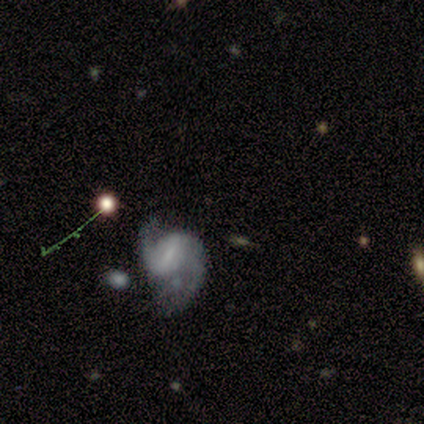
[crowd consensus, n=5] This appears to be a featured or disk galaxy (80%) with a weak bar (50%), 2 (100%) tight (33%, tied with medium and loose) spiral arms (75%) and no central bulge (75%). Merging: none (40%, tied with major disturbance).